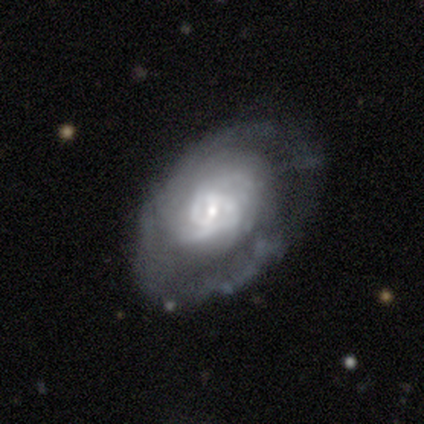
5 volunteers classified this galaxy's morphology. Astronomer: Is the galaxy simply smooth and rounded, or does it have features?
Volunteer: featured or disk — 80%.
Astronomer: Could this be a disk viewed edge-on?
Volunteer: no — 100%.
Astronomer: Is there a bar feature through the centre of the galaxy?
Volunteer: weak — 50%, tied with no at 50%.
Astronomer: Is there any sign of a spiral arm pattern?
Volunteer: yes — 100%.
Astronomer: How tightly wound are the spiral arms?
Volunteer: tight — 50%, tied with medium at 50%.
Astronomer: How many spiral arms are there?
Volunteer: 2 — 50%, tied with can't tell at 50%.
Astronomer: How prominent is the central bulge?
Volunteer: small — 75%.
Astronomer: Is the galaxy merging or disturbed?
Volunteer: none — 60%.